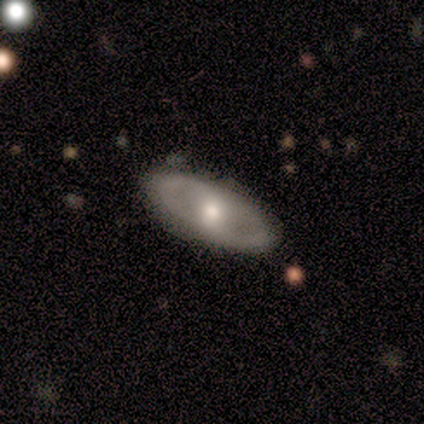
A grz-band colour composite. It shows a featured or disk galaxy (100%) with no bar (67%), 2 (100%) tight (50%, tied with medium) spiral arms (67%) and a moderate central bulge (100%). Merging: none (100%).